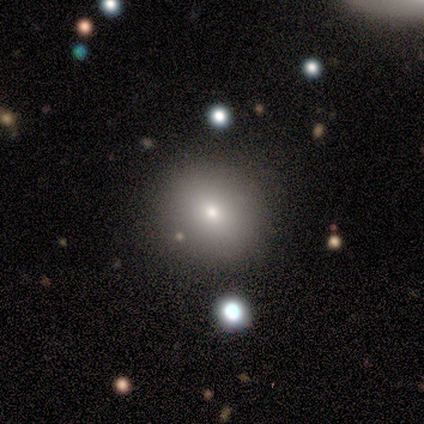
Smooth or featured? 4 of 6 (67%) said smooth. How rounded? 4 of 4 (100%) said round. Merging? 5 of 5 (100%) said none.